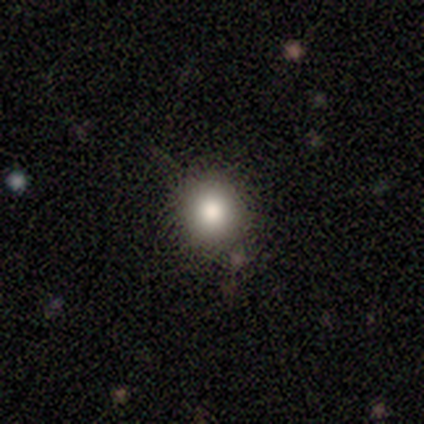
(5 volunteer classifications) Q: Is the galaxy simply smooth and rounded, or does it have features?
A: smooth — 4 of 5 (80%).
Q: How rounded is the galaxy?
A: round — 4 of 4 (100%).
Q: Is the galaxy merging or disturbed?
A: none — 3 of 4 (75%).